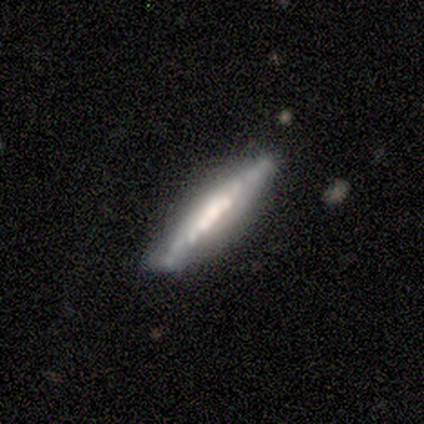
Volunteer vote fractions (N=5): smooth_or_featured: featured or disk (p=1.00)
disk_edge_on: yes (p=0.80) [alt: no p=0.20]
edge_on_bulge: none (p=0.50) [tied with: rounded p=0.50]
merging: none (p=0.80) [alt: minor disturbance p=0.20]